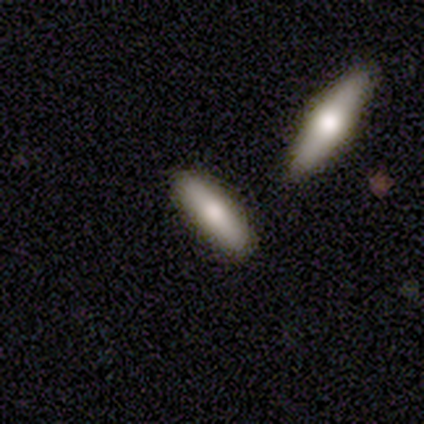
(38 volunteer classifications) Smooth or featured? smooth (50%)
How rounded? cigar-shaped (68%)
Merging? none (78%)